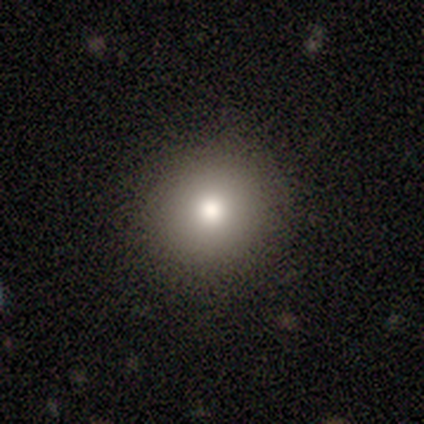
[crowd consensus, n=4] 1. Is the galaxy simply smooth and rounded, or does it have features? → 100% smooth, 0% featured or disk, 0% star or artifact.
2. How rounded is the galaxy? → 100% round, 0% in between, 0% cigar-shaped.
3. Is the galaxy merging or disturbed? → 100% none, 0% minor disturbance, 0% major disturbance, 0% merger.